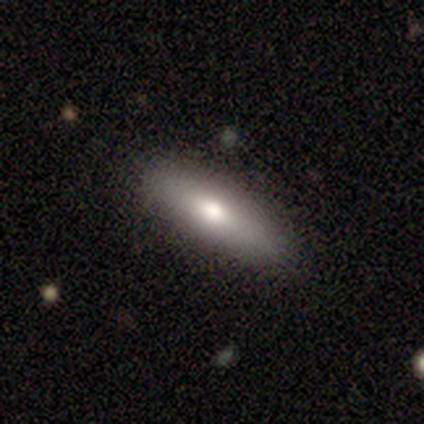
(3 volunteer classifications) Smooth or featured: featured or disk — 67% (smooth — 33%)
Edge-on disk: yes — 50% (tied with no — 50%)
Edge-on bulge: rounded — 100%
Merging: none — 100%